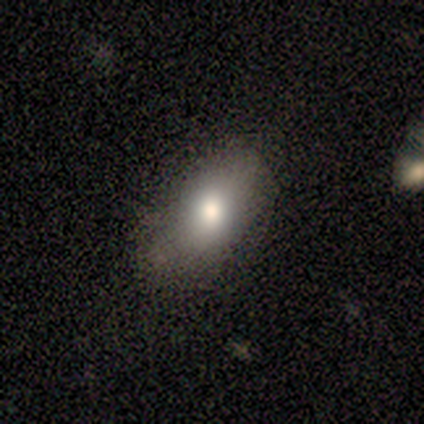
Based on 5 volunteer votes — A smooth galaxy with no disk features (100%) that is in between round and cigar-shaped (80%). Merging: none (80%).